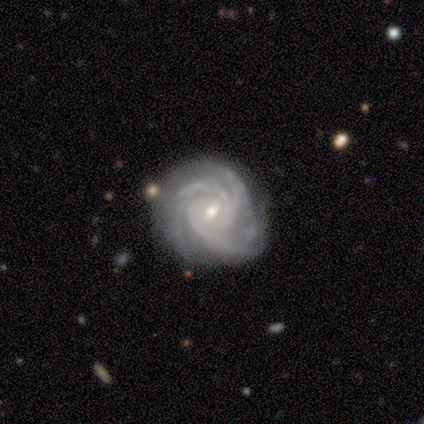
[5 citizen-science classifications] Q: Smooth or featured?
A: featured or disk (100%)
Q: Edge-on disk?
A: no (100%)
Q: Bar?
A: no (60%); runner-up: weak (40%)
Q: Spiral arms?
A: yes (100%)
Q: Spiral winding?
A: tight (60%); runner-up: medium (40%)
Q: Spiral arm count?
A: 3 (40%); tied with: 4 (40%)
Q: Bulge size?
A: small (80%); runner-up: moderate (20%)
Q: Merging?
A: none (60%); runner-up: minor disturbance (40%)